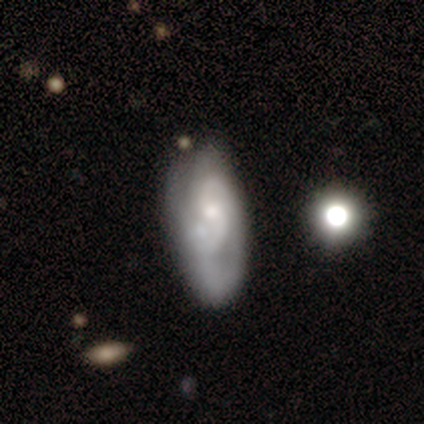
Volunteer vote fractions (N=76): smooth_or_featured: featured or disk (p=0.70) [alt: smooth p=0.24]
disk_edge_on: no (p=0.92) [alt: yes p=0.08]
bar: no (p=0.61) [alt: weak p=0.39]
has_spiral_arms: yes (p=0.86) [alt: no p=0.14]
spiral_winding: tight (p=0.36) [alt: medium p=0.33]
spiral_arm_count: 2 (p=0.71) [alt: can't tell p=0.19]
bulge_size: small (p=0.57) [alt: moderate p=0.33]
merging: none (p=0.27) [alt: merger p=0.17]